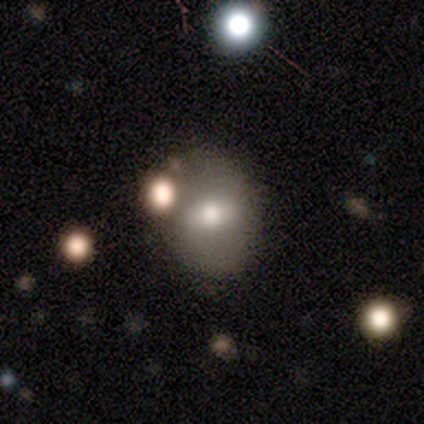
This appears to be a smooth galaxy with no disk features (78%) that is in between round and cigar-shaped (71%). Merging: none (56%).